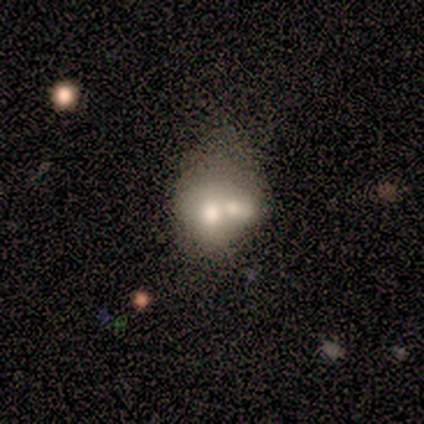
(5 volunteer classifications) A smooth galaxy with no disk features (40%, tied with featured or disk) that is round (50%, tied with in between).

Vote fractions:
- Smooth or featured? smooth: 40% (tied) / featured or disk: 40% (tied) / star or artifact: 20%
- How rounded? round: 50% (tied) / in between: 50% (tied) / cigar-shaped: 0%
- Merging? merger: 100% / none: 0% / minor disturbance: 0% / major disturbance: 0%